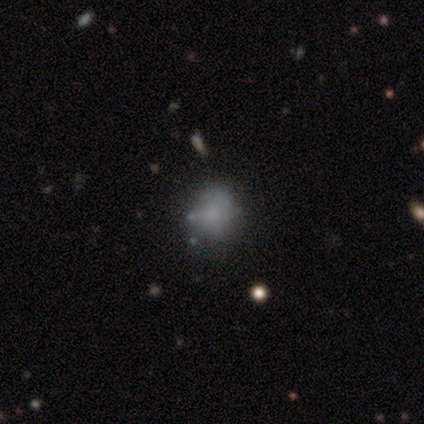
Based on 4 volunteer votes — This is possibly a smooth galaxy (50%, tied with featured or disk). How rounded: clearly in between (100%). Merging: possibly minor disturbance (50%).